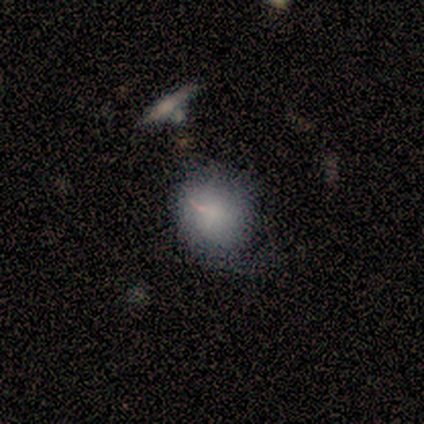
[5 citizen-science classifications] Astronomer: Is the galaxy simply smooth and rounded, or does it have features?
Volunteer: smooth — 80%.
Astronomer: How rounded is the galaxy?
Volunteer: round — 50%, tied with in between at 50%.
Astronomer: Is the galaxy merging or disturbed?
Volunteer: none — 50%, tied with minor disturbance at 50%.